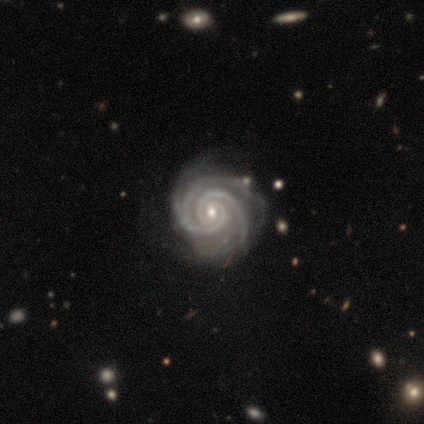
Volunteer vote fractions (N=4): smooth_or_featured: featured or disk (p=1.00)
disk_edge_on: no (p=1.00)
bar: weak (p=1.00)
has_spiral_arms: yes (p=1.00)
spiral_winding: tight (p=1.00)
spiral_arm_count: 2 (p=0.75) [alt: 3 p=0.25]
bulge_size: small (p=0.75) [alt: moderate p=0.25]
merging: none (p=0.75) [alt: minor disturbance p=0.25]